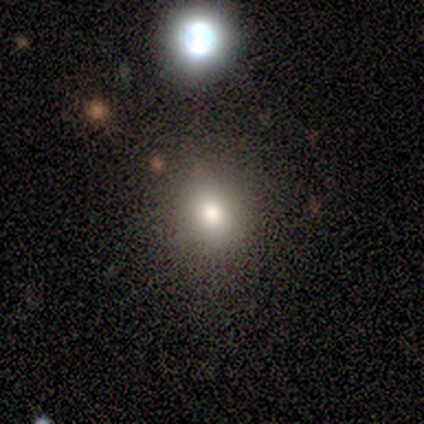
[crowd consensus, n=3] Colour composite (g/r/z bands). It shows a smooth galaxy with no disk features (100%) that is in between round and cigar-shaped (67%). Merging: none (67%).